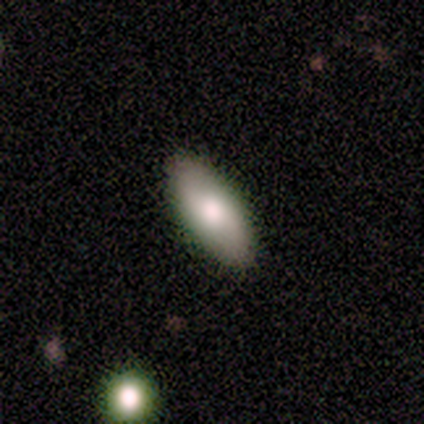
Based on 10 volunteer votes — Morphology: type=smooth (60%); roundness=in between (100%); merging=none (100%).